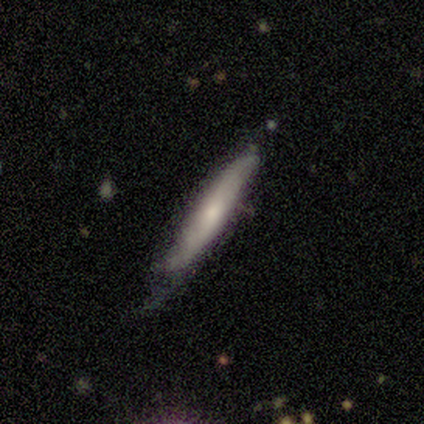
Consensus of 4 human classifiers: Smooth or featured? 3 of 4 (75%) said smooth. How rounded? 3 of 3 (100%) said cigar-shaped. Merging? 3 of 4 (75%) said none.